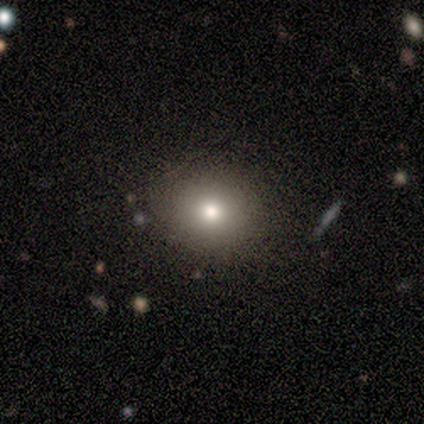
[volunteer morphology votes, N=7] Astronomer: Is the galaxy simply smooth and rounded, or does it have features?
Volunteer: smooth — 71%.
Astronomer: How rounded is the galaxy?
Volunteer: in between — 60% (runner-up: round, 40%).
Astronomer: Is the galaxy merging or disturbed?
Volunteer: none — 100%.